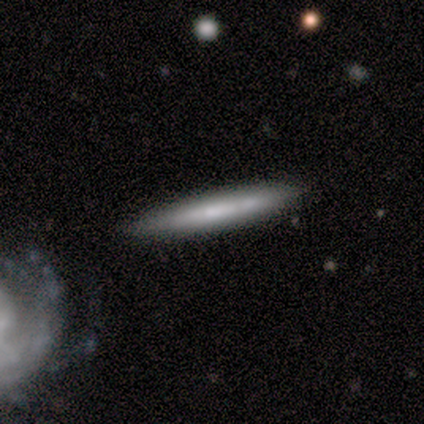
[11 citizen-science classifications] Smooth or featured? smooth (55%)
How rounded? cigar-shaped (100%)
Merging? none (60%)